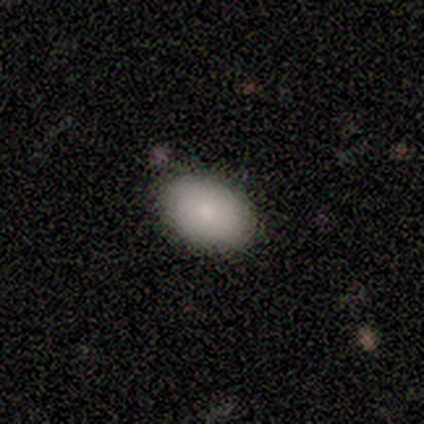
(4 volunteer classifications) Smooth or featured? 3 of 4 (75%) said smooth. How rounded? 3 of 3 (100%) said in between. Merging? 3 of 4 (75%) said none.